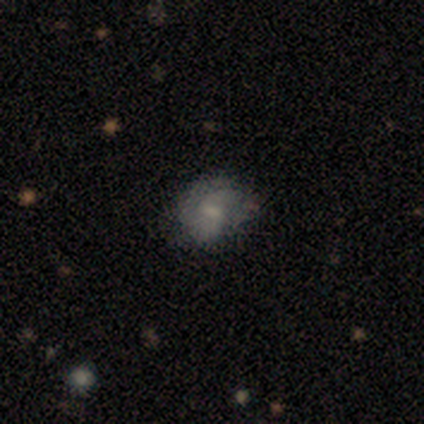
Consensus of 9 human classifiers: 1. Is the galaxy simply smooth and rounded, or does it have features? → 56% smooth, 22% featured or disk, 22% star or artifact.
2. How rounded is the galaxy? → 60% in between, 40% round, 0% cigar-shaped.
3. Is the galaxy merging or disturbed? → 57% none, 43% minor disturbance, 0% major disturbance, 0% merger.